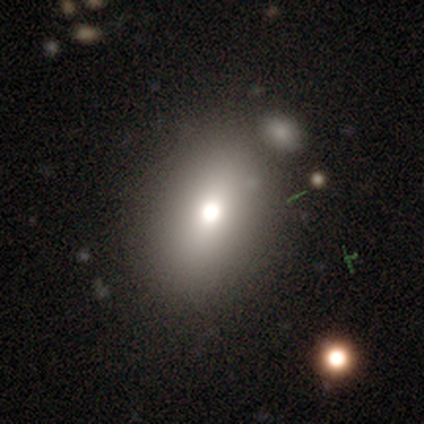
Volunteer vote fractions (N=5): This is likely a smooth galaxy (60%). How rounded: likely round (67%). Merging: marginally none (25%, tied with minor disturbance, major disturbance and merger).